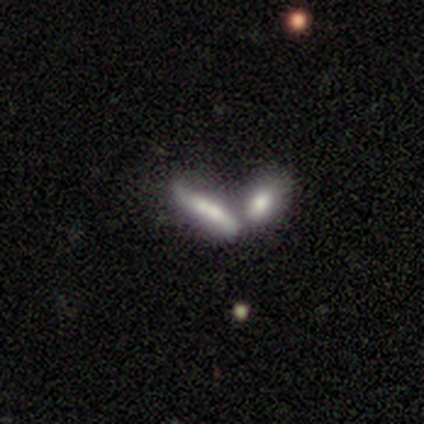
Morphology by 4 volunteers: featured or disk 75%, smooth 25%, star or artifact 0%. Down the decision tree: edge-on disk — yes (67%); edge-on bulge — rounded (100%); merging — merger (75%).